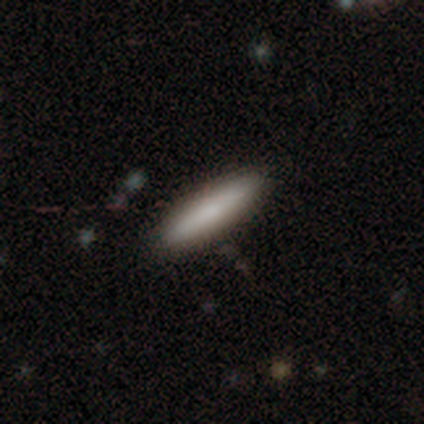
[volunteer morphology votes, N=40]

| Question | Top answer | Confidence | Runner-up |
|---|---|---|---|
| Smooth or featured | smooth | 80% | featured or disk (20%) |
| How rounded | cigar-shaped | 88% | in between (12%) |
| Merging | none | 88% | minor disturbance (12%) |